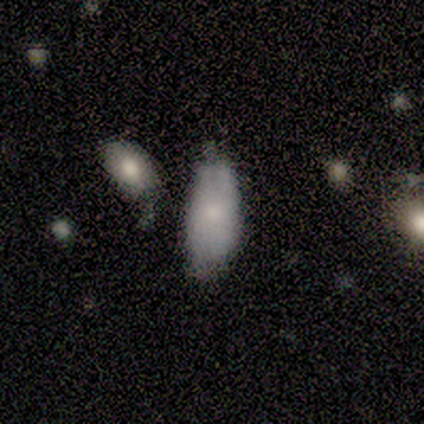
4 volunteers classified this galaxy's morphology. type=smooth (100%); roundness=in between (100%); merging=none (50%).